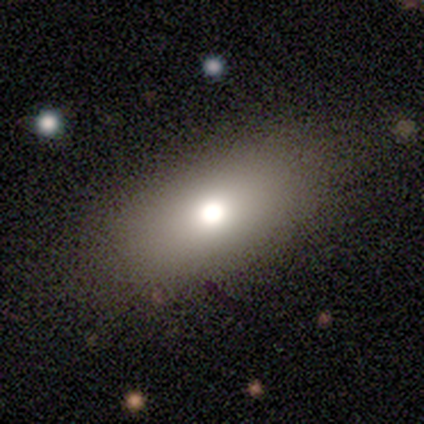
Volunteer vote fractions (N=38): A smooth galaxy with no disk features (74%) that is in between round and cigar-shaped (86%). Merging: none (53%).